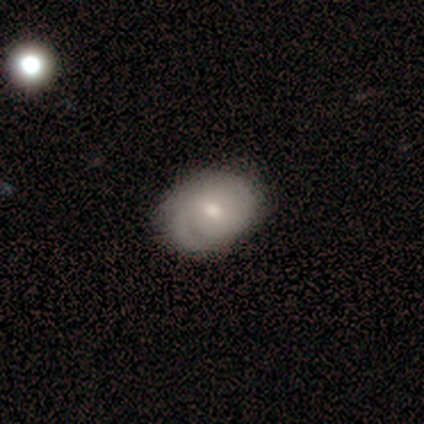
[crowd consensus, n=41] A featured or disk galaxy (61%) with a weak bar (61%), 2 (67%) tight (67%) spiral arms (91%) and a moderate central bulge (48%). Merging: none (72%).